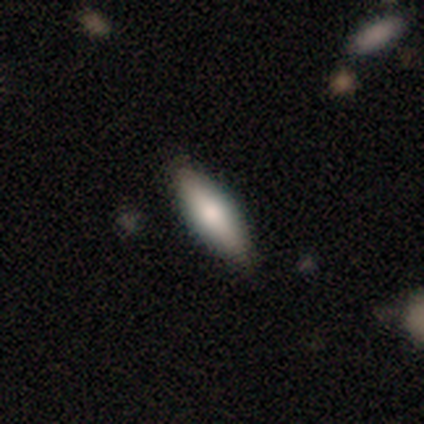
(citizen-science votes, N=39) Smooth or featured: smooth — 59% (featured or disk — 26%)
How rounded: in between — 52% (cigar-shaped — 48%)
Merging: none — 82% (minor disturbance — 15%)